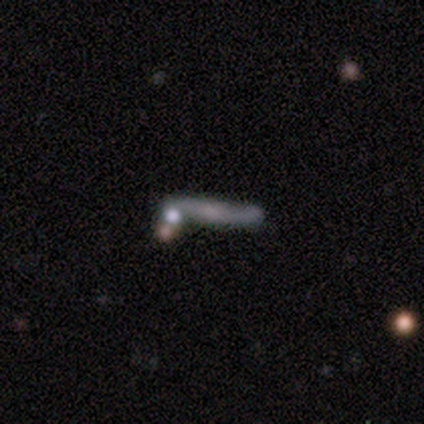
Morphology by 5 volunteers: Overall: featured or disk (60%; smooth 40%). Edge-on disk: yes (67%; no 33%). Edge-on bulge: none (50%, tied with rounded). Merging: none (40%, tied with merger).